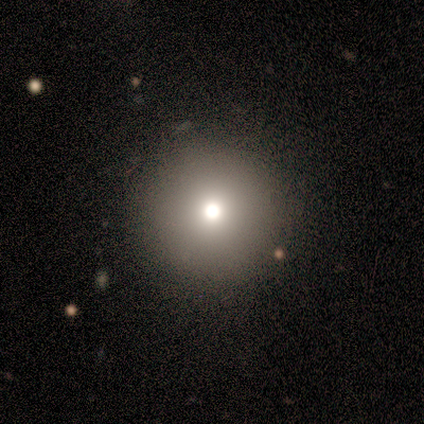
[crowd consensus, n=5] A smooth galaxy with no disk features (80%) that is round (100%). Merging: none (100%).